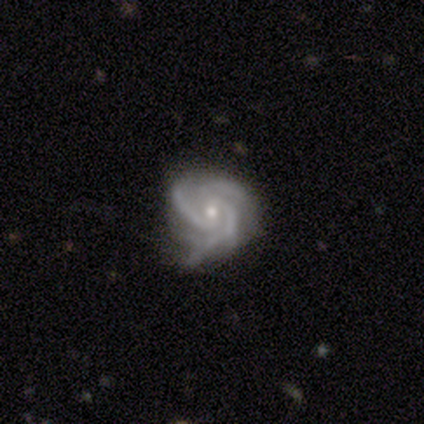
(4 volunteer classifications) featured or disk 100%, smooth 0%, star or artifact 0%. Down the decision tree: edge-on disk — no (100%); bar — weak (50%, tied with no); spiral arms — yes (100%); spiral arm count — 3 (100%); spiral winding — tight (50%, tied with medium); bulge size — moderate (50%, tied with small); merging — none (50%, tied with minor disturbance).